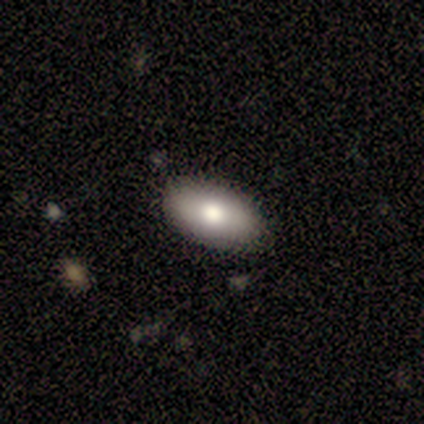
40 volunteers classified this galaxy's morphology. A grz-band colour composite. It shows a smooth galaxy with no disk features (70%) that is in between round and cigar-shaped (96%). Merging: none (82%).